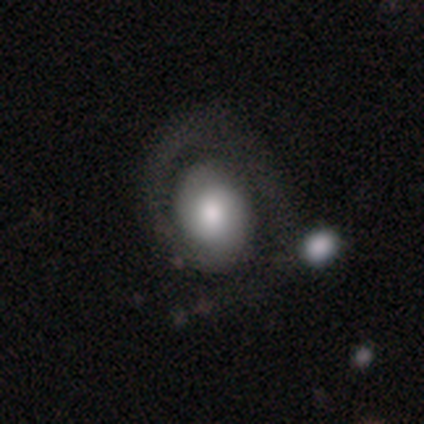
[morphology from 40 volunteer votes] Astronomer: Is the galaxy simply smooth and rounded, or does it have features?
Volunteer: featured or disk — 62%.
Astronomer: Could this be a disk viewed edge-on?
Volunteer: no — 96%.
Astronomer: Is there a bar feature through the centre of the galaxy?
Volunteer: no — 71%.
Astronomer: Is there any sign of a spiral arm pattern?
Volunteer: yes — 83%.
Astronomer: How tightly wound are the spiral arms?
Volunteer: tight — 60%.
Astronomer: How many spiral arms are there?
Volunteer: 1 — 70%.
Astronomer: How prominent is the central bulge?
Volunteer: moderate — 54% (runner-up: large, 29%).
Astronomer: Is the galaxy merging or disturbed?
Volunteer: none — 38% (runner-up: major disturbance, 28%).